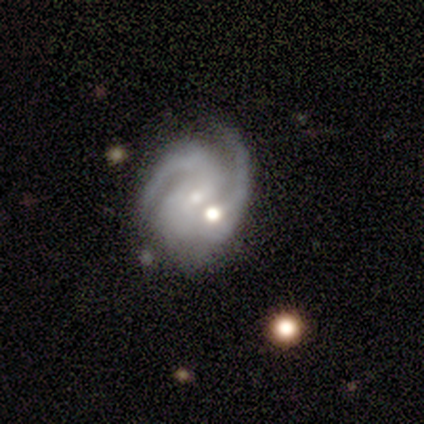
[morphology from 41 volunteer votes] Smooth or featured?
  - featured or disk: 93% *
  - star or artifact: 5%
  - smooth: 2%
Edge-on disk?
  - no: 97% *
  - yes: 3%
Bar?
  - weak: 51% *
  - no: 38%
  - strong: 11%
Spiral arms?
  - yes: 100% *
  - no: 0%
Spiral winding?
  - medium: 51% *
  - tight: 38%
  - loose: 11%
Spiral arm count?
  - 2: 73% *
  - can't tell: 22%
  - 3: 5%
  - 1: 0%
  - 4: 0%
  - more than 4: 0%
Bulge size?
  - small: 62% *
  - moderate: 30%
  - large: 5%
  - none: 3%
  - dominant: 0%
Merging?
  - none: 41% *
  - merger: 36%
  - minor disturbance: 15%
  - major disturbance: 8%